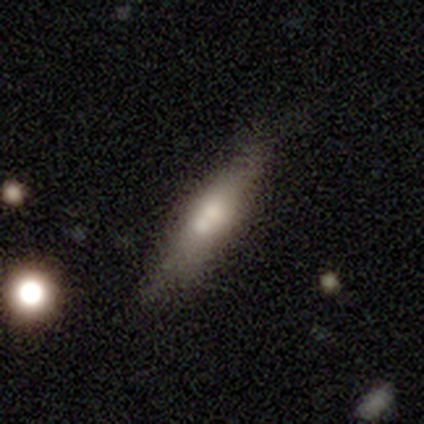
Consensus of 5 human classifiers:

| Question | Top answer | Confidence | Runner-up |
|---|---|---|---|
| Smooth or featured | smooth | 60% | featured or disk (20%) |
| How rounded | cigar-shaped | 67% | in between (33%) |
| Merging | none | 75% | merger (25%) |